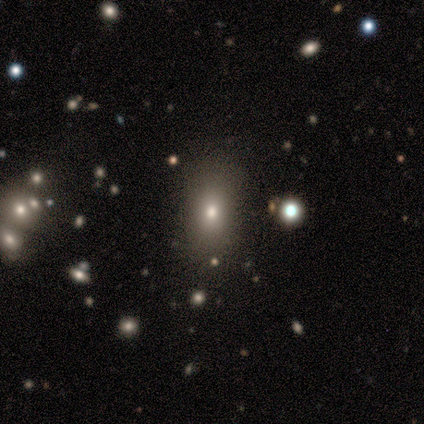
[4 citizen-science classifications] Volunteers were most divided on "how rounded" (3-way tie): round: 33%, in between: 33%, cigar-shaped: 33%. More confident: smooth or featured — smooth (75%); merging — minor disturbance (50%).